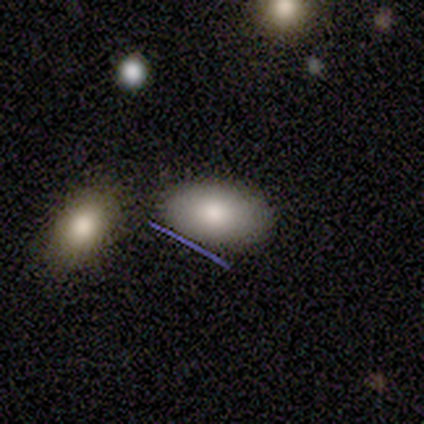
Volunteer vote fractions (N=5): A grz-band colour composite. It shows a smooth galaxy with no disk features (60%) that is in between round and cigar-shaped (100%). Merging: none (100%).